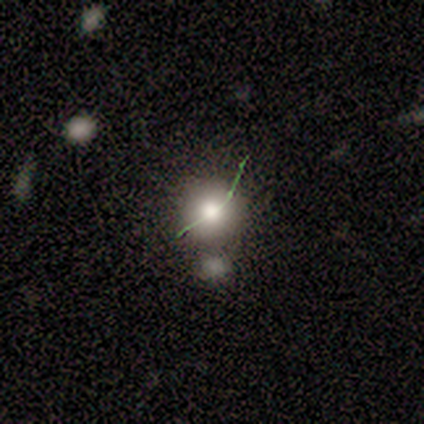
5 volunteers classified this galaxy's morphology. smooth 60%, featured or disk 20%, star or artifact 20%. Down the decision tree: how rounded — round (100%); merging — none (75%).